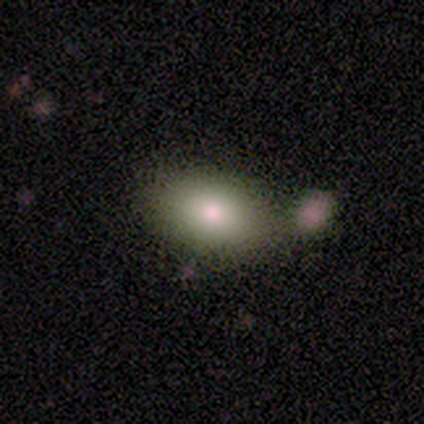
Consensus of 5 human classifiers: This is likely a smooth galaxy (60%). How rounded: clearly in between (100%). Merging: marginally none (33%, tied with minor disturbance and merger).